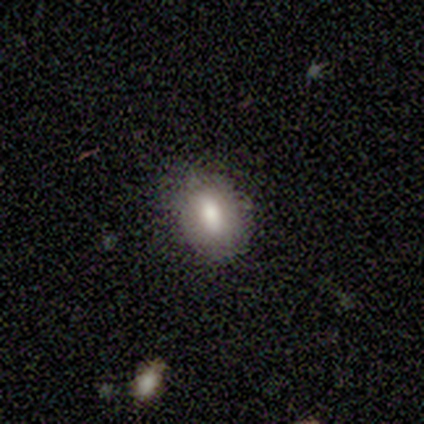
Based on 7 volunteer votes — A smooth galaxy with no disk features (100%) that is in between round and cigar-shaped (86%).

Vote fractions:
- Smooth or featured? smooth: 100% / featured or disk: 0% / star or artifact: 0%
- How rounded? in between: 86% / round: 14% / cigar-shaped: 0%
- Merging? none: 86% / minor disturbance: 14% / major disturbance: 0% / merger: 0%